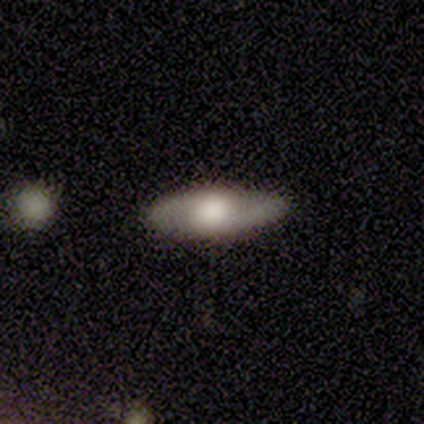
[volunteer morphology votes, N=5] smooth_or_featured: featured or disk (p=0.60) [alt: smooth p=0.40]
disk_edge_on: no (p=0.67) [alt: yes p=0.33]
bar: weak (p=0.50) [tied with: no p=0.50]
has_spiral_arms: yes (p=0.50) [tied with: no p=0.50]
spiral_winding: tight (p=1.00)
spiral_arm_count: 2 (p=1.00)
bulge_size: dominant (p=0.50) [tied with: large p=0.50]
merging: none (p=1.00)